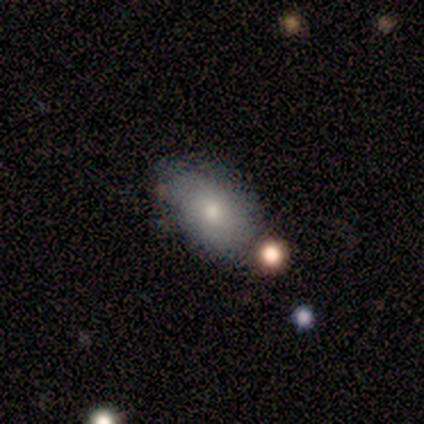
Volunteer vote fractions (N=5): Smooth or featured? smooth (60%)
How rounded? in between (100%)
Merging? none (50%)